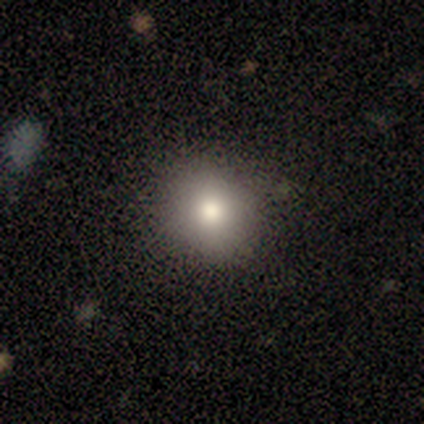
Volunteers were most divided on "smooth or featured": smooth: 68%, featured or disk: 18%, star or artifact: 13%. More confident: merging — none (94%); how rounded — round (88%).